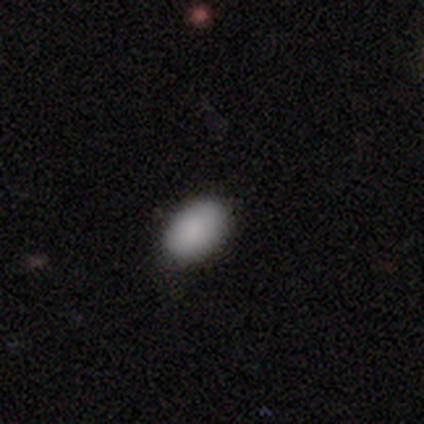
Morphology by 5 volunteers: Smooth or featured: smooth — 100%
How rounded: in between — 100%
Merging: none — 100%